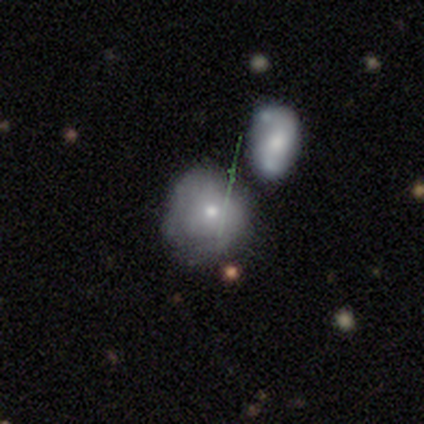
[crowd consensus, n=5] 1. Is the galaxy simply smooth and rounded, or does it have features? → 60% featured or disk, 40% smooth, 0% star or artifact.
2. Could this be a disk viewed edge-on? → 100% no, 0% yes.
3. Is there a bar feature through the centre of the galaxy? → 100% no, 0% strong, 0% weak.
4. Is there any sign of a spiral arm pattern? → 100% no, 0% yes.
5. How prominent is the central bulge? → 67% moderate, 33% small, 0% dominant, 0% large, 0% none.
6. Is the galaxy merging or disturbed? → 40% minor disturbance, 20% none, 20% major disturbance, 20% merger.